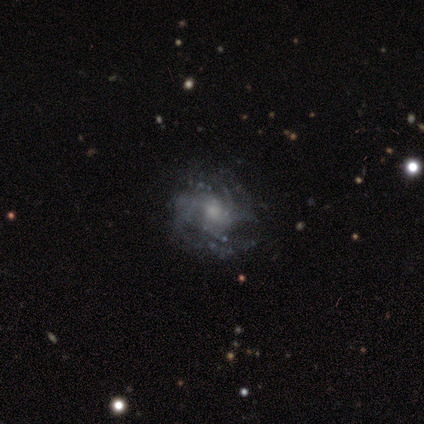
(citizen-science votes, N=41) Morphology: type=featured or disk (93%); edge-on=no (100%); bar=no (71%); spiral arms=yes (92%); winding=tight (57%); arm count=can't tell (31%); bulge=moderate (50%); merging=none (66%).